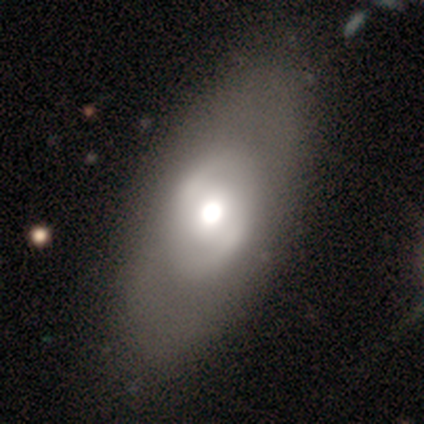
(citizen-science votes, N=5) A smooth galaxy with no disk features (60%) that is in between round and cigar-shaped (100%). Merging: none (80%).